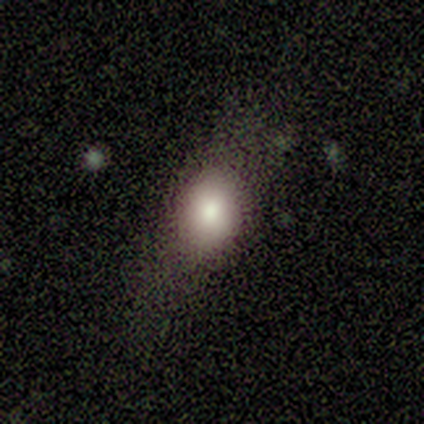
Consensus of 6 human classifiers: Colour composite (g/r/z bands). It shows a smooth galaxy with no disk features (67%) that is round (75%). Merging: none (60%).